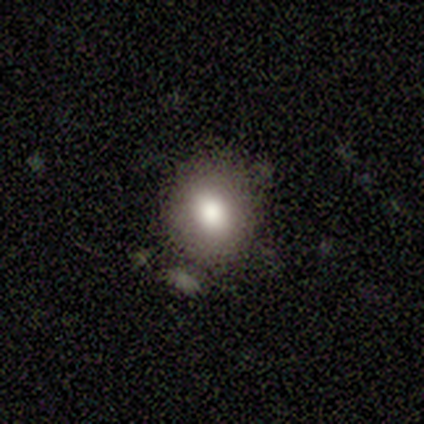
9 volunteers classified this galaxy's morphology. A smooth galaxy with no disk features (44%) that is round (100%). Merging: none (67%).